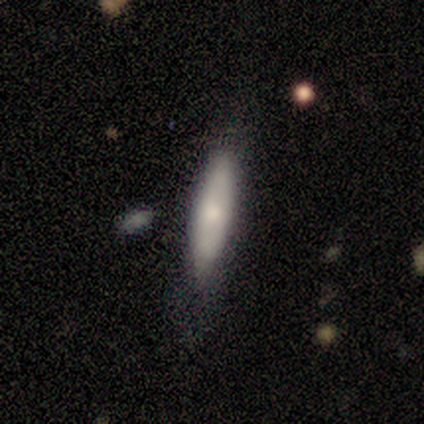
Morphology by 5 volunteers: smooth_or_featured: smooth (p=0.80) [alt: star or artifact p=0.20]
how_rounded: cigar-shaped (p=1.00)
merging: none (p=0.75) [alt: minor disturbance p=0.25]